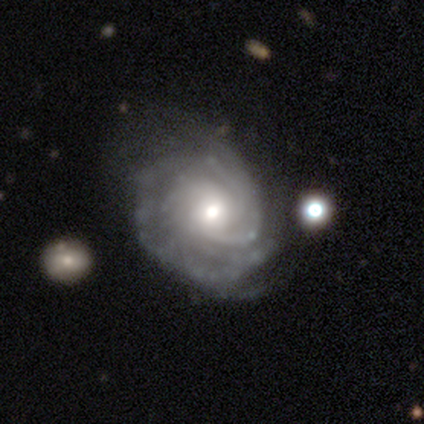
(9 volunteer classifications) This appears to be a featured or disk galaxy (89%) with a weak bar (50%, tied with no), 2 (38%, tied with can't tell) tight (62%) spiral arms (100%) and a moderate central bulge (50%). Merging: minor disturbance (44%).